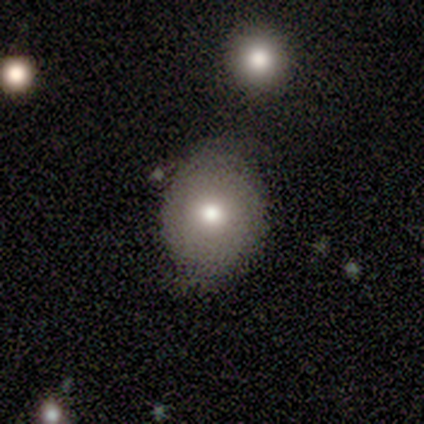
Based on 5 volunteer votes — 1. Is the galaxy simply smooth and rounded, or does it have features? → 80% smooth, 20% star or artifact, 0% featured or disk.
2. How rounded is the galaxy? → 75% round, 25% in between, 0% cigar-shaped.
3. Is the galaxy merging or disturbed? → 100% none, 0% minor disturbance, 0% major disturbance, 0% merger.